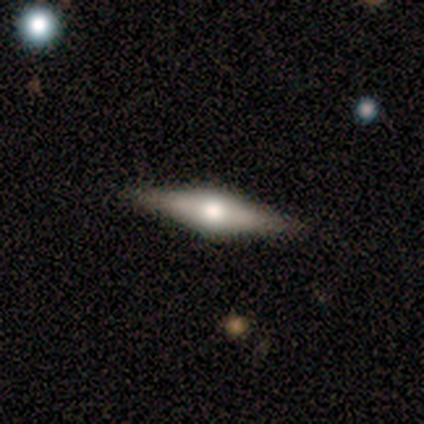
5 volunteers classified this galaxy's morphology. Smooth or featured? 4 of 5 (80%) said smooth. How rounded? 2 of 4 (50%, tied with cigar-shaped) said in between. Merging? 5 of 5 (100%) said none.